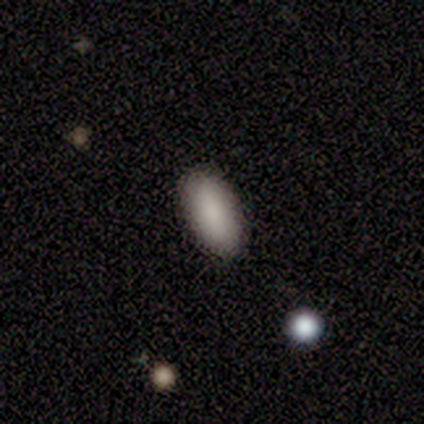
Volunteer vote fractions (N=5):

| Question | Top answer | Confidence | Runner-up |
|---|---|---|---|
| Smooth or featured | smooth | 80% | star or artifact (20%) |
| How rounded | in between | 100% | — |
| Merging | none | 100% | — |